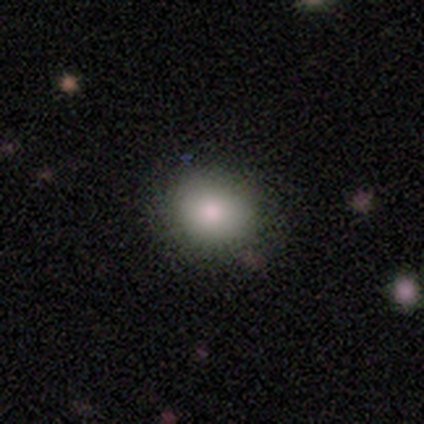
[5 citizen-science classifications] Smooth or featured?
  - smooth: 100% *
  - featured or disk: 0%
  - star or artifact: 0%
How rounded?
  - round: 80% *
  - in between: 20%
  - cigar-shaped: 0%
Merging?
  - none: 100% *
  - minor disturbance: 0%
  - major disturbance: 0%
  - merger: 0%